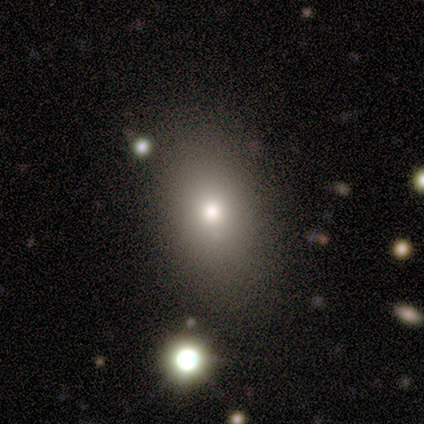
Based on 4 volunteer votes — Smooth or featured? 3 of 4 (75%) said smooth. How rounded? 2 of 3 (67%) said in between. Merging? 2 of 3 (67%) said none.